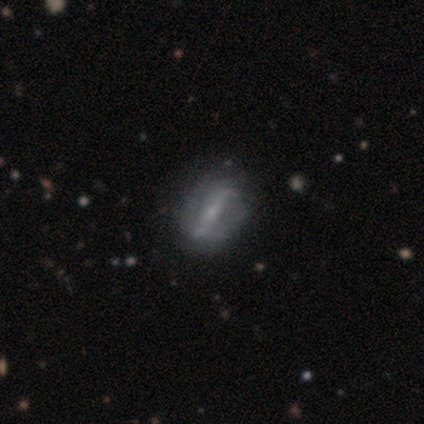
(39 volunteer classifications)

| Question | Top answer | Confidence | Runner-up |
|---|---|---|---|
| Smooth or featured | featured or disk | 92% | star or artifact (5%) |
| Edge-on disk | no | 89% | yes (11%) |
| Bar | strong | 62% | weak (22%) |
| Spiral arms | yes | 91% | no (9%) |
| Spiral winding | loose | 48% | medium (31%) |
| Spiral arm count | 2 | 83% | 1 (7%) |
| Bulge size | small | 50% | none (31%) |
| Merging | none | 46% | minor disturbance (22%) |